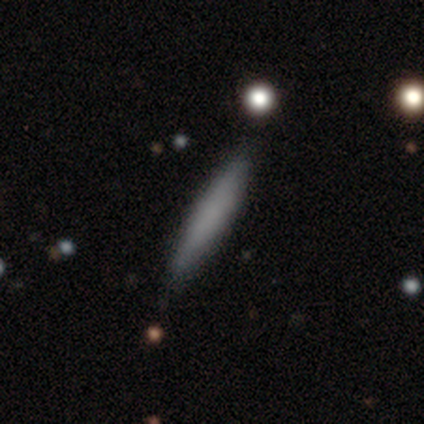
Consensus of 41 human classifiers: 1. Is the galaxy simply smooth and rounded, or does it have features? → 78% smooth, 22% featured or disk, 0% star or artifact.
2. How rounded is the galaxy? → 97% cigar-shaped, 3% in between, 0% round.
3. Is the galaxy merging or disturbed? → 68% none, 5% minor disturbance, 2% merger, 0% major disturbance.